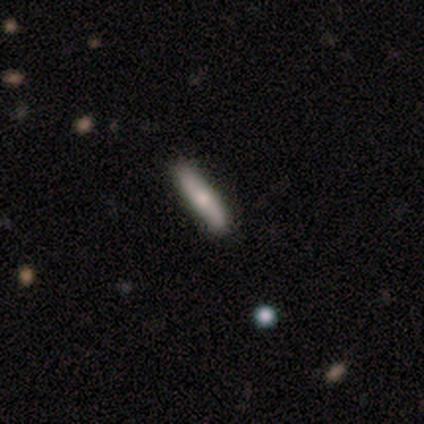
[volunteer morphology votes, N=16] A smooth galaxy with no disk features (69%) that is cigar-shaped (82%).

Vote fractions:
- Smooth or featured? smooth: 69% / featured or disk: 19% / star or artifact: 12%
- How rounded? cigar-shaped: 82% / in between: 18% / round: 0%
- Merging? none: 57% / minor disturbance: 36% / major disturbance: 7% / merger: 0%